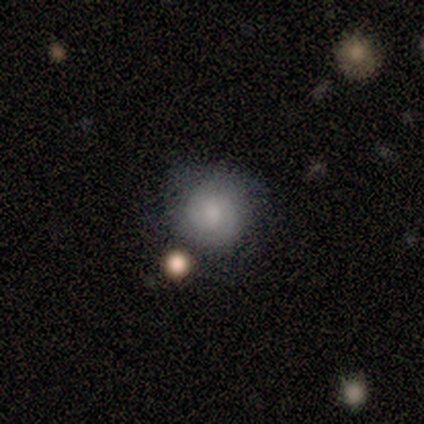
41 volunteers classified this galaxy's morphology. This appears to be a smooth galaxy with no disk features (59%) that is round (88%). Merging: none (70%).